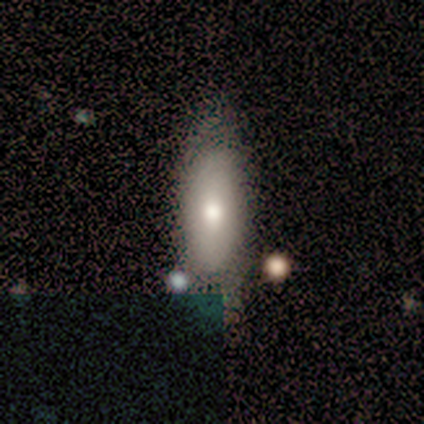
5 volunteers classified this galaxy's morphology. Smooth or featured? 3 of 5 (60%) said smooth. How rounded? 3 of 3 (100%) said in between. Merging? 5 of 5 (100%) said none.